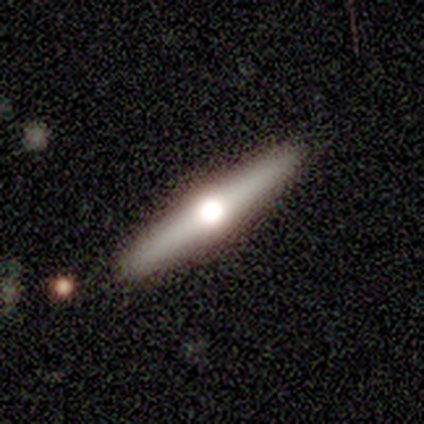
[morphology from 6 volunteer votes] Overall: featured or disk (67%). Edge-on disk: yes (100%). Edge-on bulge: rounded (100%). Merging: none (80%).